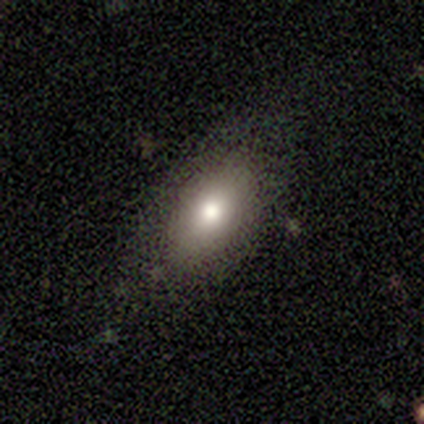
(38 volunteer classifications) This appears to be a smooth galaxy with no disk features (63%) that is in between round and cigar-shaped (96%). Merging: none (94%).